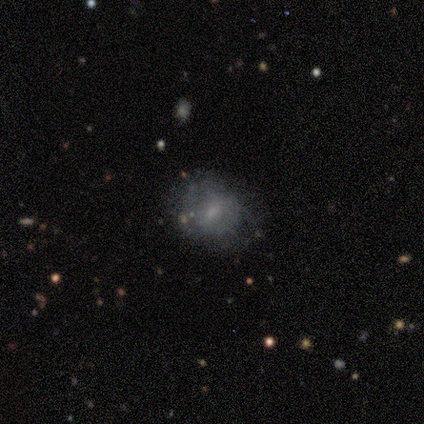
Q: Smooth or featured?
A: smooth (57%); runner-up: featured or disk (43%)
Q: How rounded?
A: round (100%)
Q: Merging?
A: none (57%); runner-up: minor disturbance (43%)